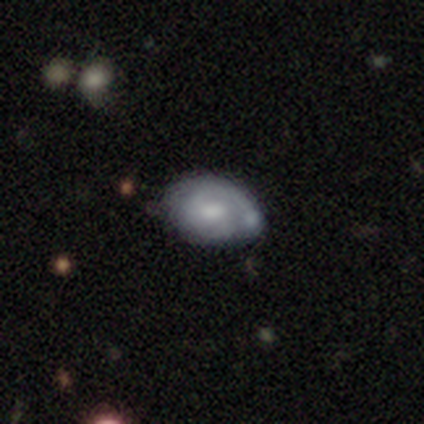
smooth_or_featured: featured or disk (p=0.55) [alt: smooth p=0.35]
disk_edge_on: no (p=1.00)
bar: no (p=0.59) [alt: weak p=0.41]
has_spiral_arms: yes (p=0.77) [alt: no p=0.23]
spiral_winding: tight (p=0.65) [alt: medium p=0.24]
spiral_arm_count: 1 (p=0.41) [alt: 2 p=0.29]
bulge_size: moderate (p=0.36) [alt: small p=0.27]
merging: none (p=0.44) [alt: minor disturbance p=0.28]